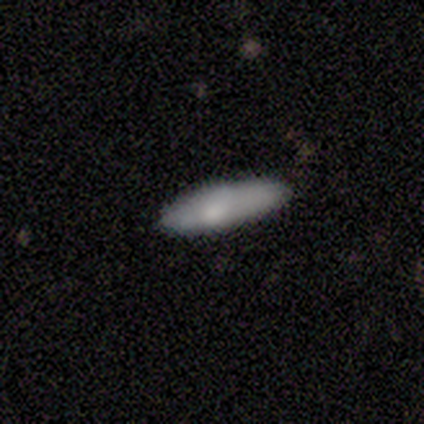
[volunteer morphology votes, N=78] A smooth galaxy with no disk features (86%) that is cigar-shaped (60%).

Vote fractions:
- Smooth or featured? smooth: 86% / featured or disk: 10% / star or artifact: 4%
- How rounded? cigar-shaped: 60% / in between: 39% / round: 1%
- Merging? none: 88% / minor disturbance: 11% / merger: 1% / major disturbance: 0%